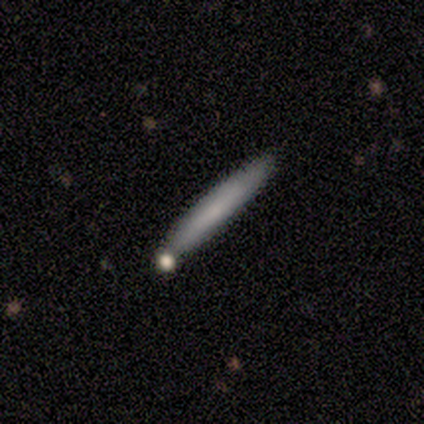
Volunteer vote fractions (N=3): Smooth or featured: smooth — 67% (featured or disk — 33%)
How rounded: cigar-shaped — 100%
Merging: none — 67% (minor disturbance — 33%)